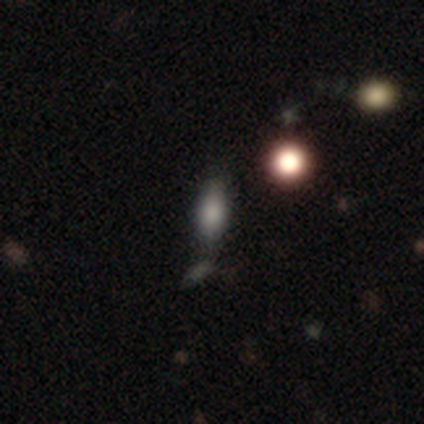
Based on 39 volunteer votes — This is likely a smooth galaxy (72%). How rounded: likely in between (61%). Merging: possibly none (58%).